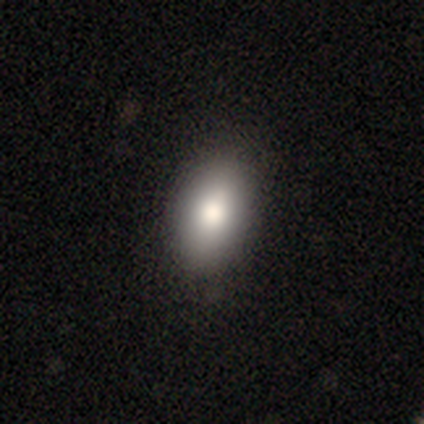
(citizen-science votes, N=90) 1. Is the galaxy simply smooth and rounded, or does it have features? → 86% smooth, 8% star or artifact, 7% featured or disk.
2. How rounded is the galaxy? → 87% in between, 6% round, 6% cigar-shaped.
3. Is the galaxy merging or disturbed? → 84% none, 14% minor disturbance, 1% merger, 0% major disturbance.